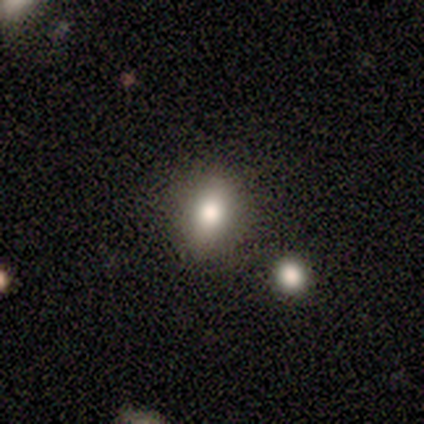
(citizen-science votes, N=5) Smooth or featured?
  - smooth: 80% *
  - featured or disk: 20%
  - star or artifact: 0%
How rounded?
  - in between: 50% *
  - round: 25%
  - cigar-shaped: 25%
Merging?
  - none: 60% *
  - minor disturbance: 20%
  - merger: 20%
  - major disturbance: 0%